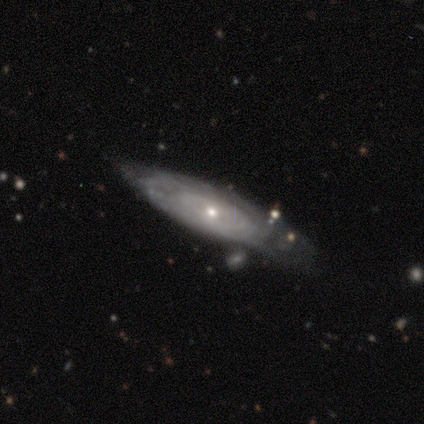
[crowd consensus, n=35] A featured or disk galaxy (71%) with no bar (94%), tight (71%) spiral arms (88%) and a small central bulge (62%).

Vote fractions:
- Smooth or featured? featured or disk: 71% / smooth: 23% / star or artifact: 6%
- Edge-on disk? no: 64% / yes: 36%
- Bar? no: 94% / weak: 6% / strong: 0%
- Spiral arms? yes: 88% / no: 12%
- Spiral winding? tight: 71% / loose: 21% / medium: 7%
- Spiral arm count? can't tell: 86% / 4: 7% / more than 4: 7% / 1: 0% / 2: 0% / 3: 0%
- Bulge size? small: 62% / moderate: 38% / dominant: 0% / large: 0% / none: 0%
- Merging? none: 61% / minor disturbance: 18% / merger: 12% / major disturbance: 9%